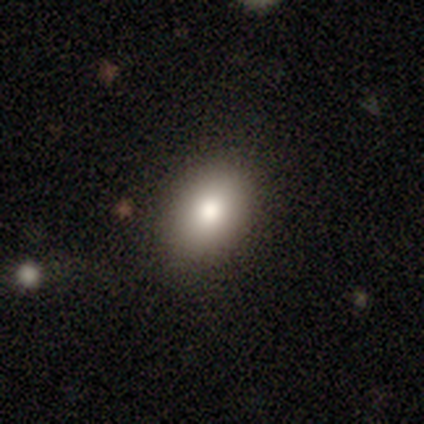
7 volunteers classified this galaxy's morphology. Overall: smooth (100%). How rounded: in between (100%). Merging: none (86%).